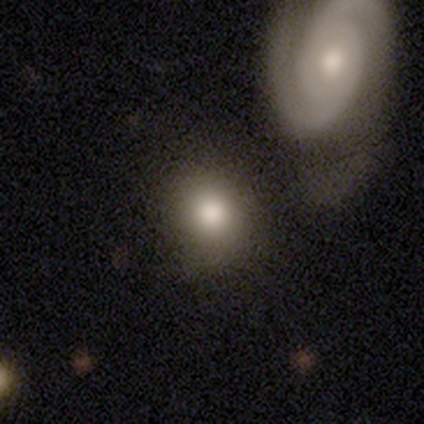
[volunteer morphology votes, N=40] Volunteers were most divided on "merging": none: 58%, merger: 11%, minor disturbance: 8%, major disturbance: 6%. More confident: how rounded — round (76%); smooth or featured — smooth (72%).